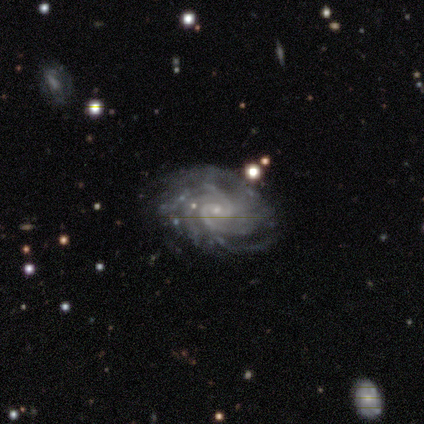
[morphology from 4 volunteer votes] Smooth or featured: featured or disk — 100%
Edge-on disk: no — 100%
Bar: weak — 50% (strong — 25%)
Spiral arms: yes — 100%
Spiral winding: tight — 50% (tied with medium — 50%)
Spiral arm count: 4 — 50% (2 — 25%)
Bulge size: small — 75% (moderate — 25%)
Merging: none — 75% (minor disturbance — 25%)